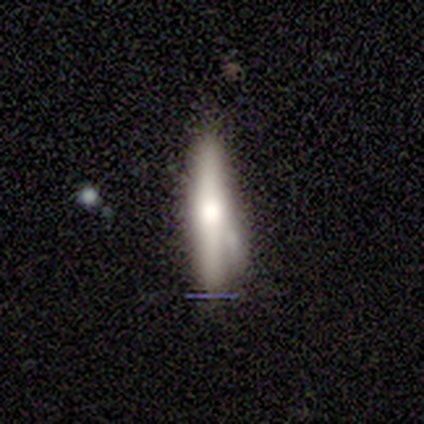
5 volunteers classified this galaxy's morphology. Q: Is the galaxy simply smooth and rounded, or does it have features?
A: smooth — 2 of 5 (40%, tied with featured or disk).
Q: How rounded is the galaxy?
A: cigar-shaped — 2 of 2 (100%).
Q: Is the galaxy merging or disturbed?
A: minor disturbance — 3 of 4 (75%).